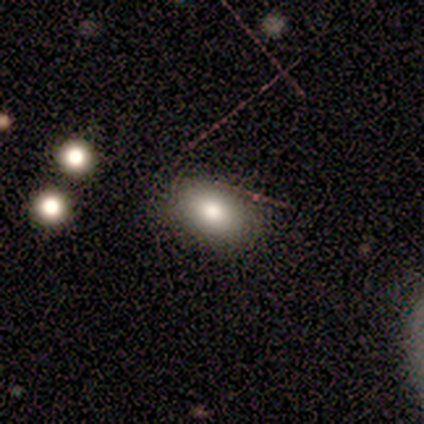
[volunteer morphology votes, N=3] Q: Smooth or featured?
A: star or artifact (67%); runner-up: smooth (33%)